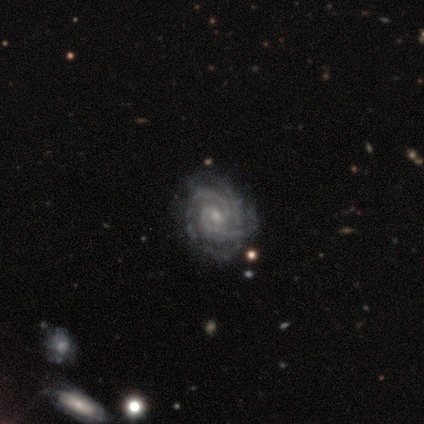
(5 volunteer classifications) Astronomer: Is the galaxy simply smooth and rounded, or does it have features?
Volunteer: featured or disk — 80%.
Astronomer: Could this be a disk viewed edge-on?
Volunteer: no — 100%.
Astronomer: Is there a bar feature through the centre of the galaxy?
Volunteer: weak — 50%, tied with no at 50%.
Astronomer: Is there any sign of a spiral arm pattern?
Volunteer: yes — 100%.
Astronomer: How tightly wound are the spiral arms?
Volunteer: tight — 50%.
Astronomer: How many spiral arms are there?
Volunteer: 2 — 75%.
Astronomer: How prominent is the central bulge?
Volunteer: small — 75%.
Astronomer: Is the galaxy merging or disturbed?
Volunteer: none — 100%.